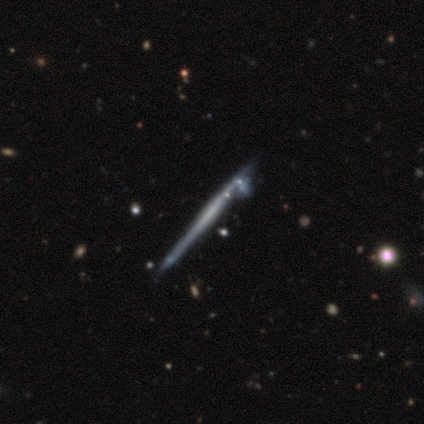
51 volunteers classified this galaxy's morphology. This appears to be a featured or disk galaxy (75%) viewed edge-on (97%) with no central bulge (81%). Merging: none (43%).